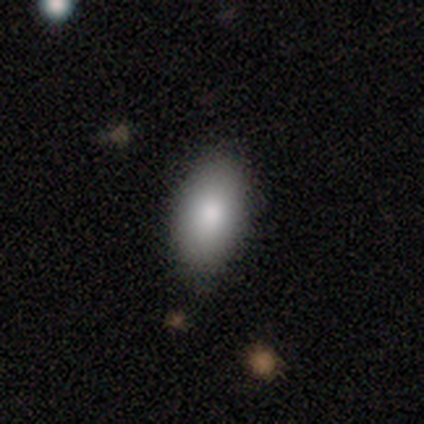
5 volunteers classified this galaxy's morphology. type=smooth (100%); roundness=in between (100%); merging=none (100%).